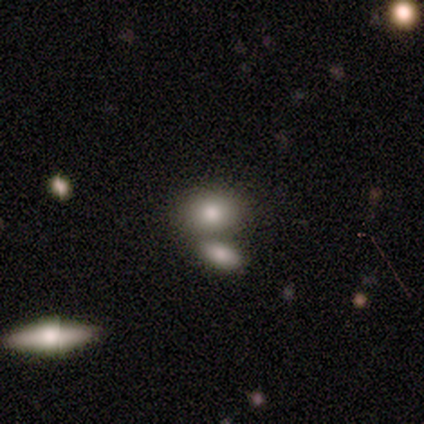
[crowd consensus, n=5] This appears to be a smooth galaxy with no disk features (100%) that is in between round and cigar-shaped (100%). Merging: none (100%).